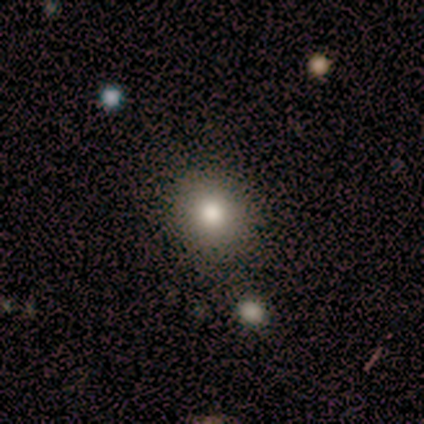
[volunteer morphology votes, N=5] Smooth or featured? smooth (100%)
How rounded? round (80%)
Merging? none (80%)